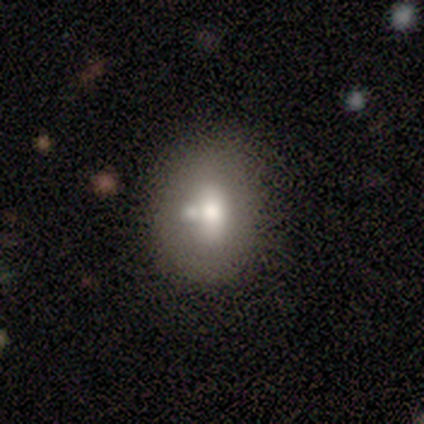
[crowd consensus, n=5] Smooth or featured?
  - smooth: 60% *
  - featured or disk: 20%
  - star or artifact: 20%
How rounded?
  - round: 67% *
  - in between: 33%
  - cigar-shaped: 0%
Merging?
  - none: 100% *
  - minor disturbance: 0%
  - major disturbance: 0%
  - merger: 0%